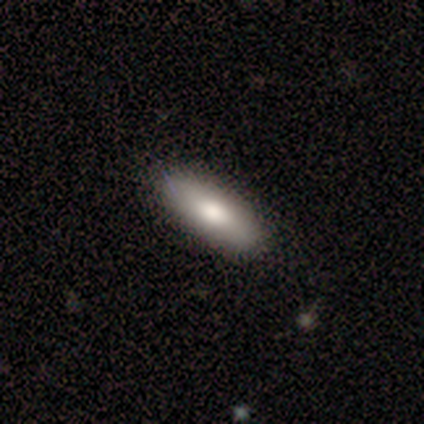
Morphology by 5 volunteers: smooth_or_featured: smooth (p=0.60) [alt: featured or disk p=0.20]
how_rounded: in between (p=0.67) [alt: cigar-shaped p=0.33]
merging: none (p=1.00)